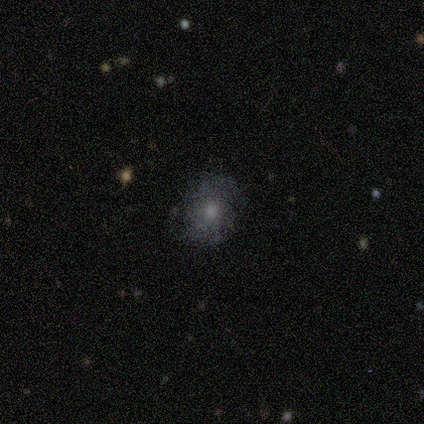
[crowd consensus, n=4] This appears to be a smooth galaxy with no disk features (50%) that is round (50%, tied with in between). Merging: none (67%).